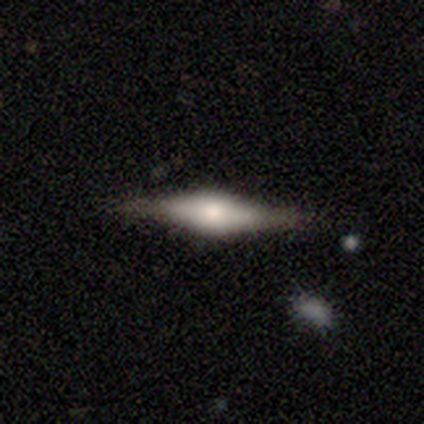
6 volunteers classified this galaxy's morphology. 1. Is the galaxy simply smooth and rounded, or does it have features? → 67% featured or disk, 33% smooth, 0% star or artifact.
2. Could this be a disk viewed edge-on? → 100% yes, 0% no.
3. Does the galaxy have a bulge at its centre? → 75% rounded, 25% boxy, 0% none.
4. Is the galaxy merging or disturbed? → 83% none, 17% merger, 0% minor disturbance, 0% major disturbance.